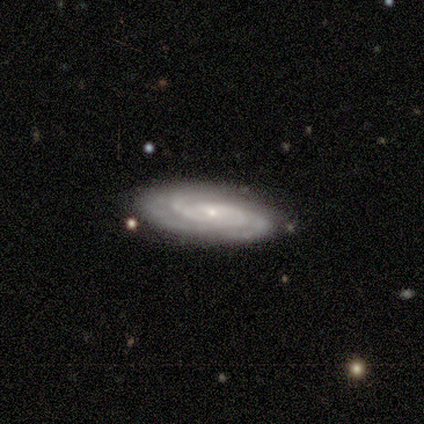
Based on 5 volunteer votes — Smooth or featured? 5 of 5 (100%) said featured or disk. Edge-on disk? 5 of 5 (100%) said no. Bar? 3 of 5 (60%) said no. Spiral arms? 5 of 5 (100%) said yes. Spiral winding? 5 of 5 (100%) said tight. Spiral arm count? 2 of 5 (40%) said 2. Bulge size? 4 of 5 (80%) said small. Merging? 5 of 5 (100%) said none.